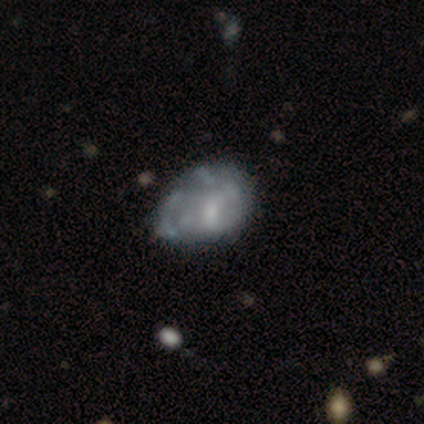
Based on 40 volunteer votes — featured or disk 62%, smooth 28%, star or artifact 10%. Down the decision tree: edge-on disk — no (100%); bar — no (68%); spiral arms — no (68%); bulge size — small (36%); merging — minor disturbance (31%).